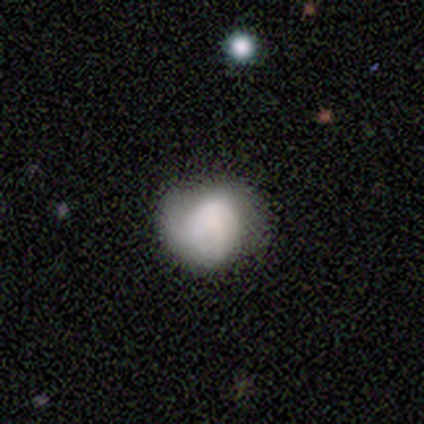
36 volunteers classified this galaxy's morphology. This appears to be a smooth galaxy with no disk features (61%) that is round (55%). Merging: none (58%).